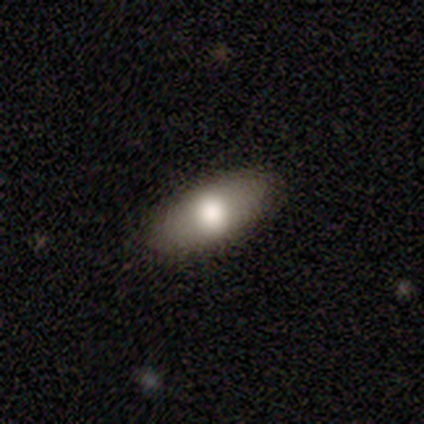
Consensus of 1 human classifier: Smooth or featured? 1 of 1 (100%) said featured or disk. Edge-on disk? 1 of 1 (100%) said no. Bar? 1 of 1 (100%) said weak. Spiral arms? 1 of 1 (100%) said no. Bulge size? 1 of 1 (100%) said moderate. Merging? 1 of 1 (100%) said minor disturbance.